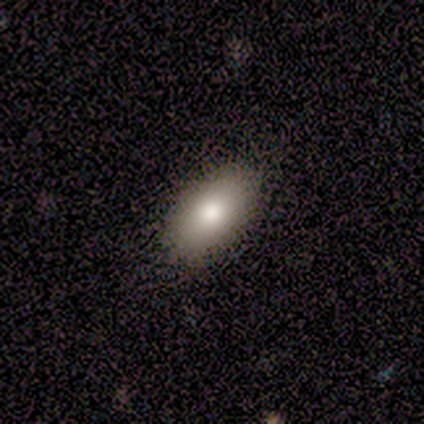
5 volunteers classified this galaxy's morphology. This is clearly a smooth galaxy (80%). How rounded: likely in between (75%). Merging: clearly none (80%).